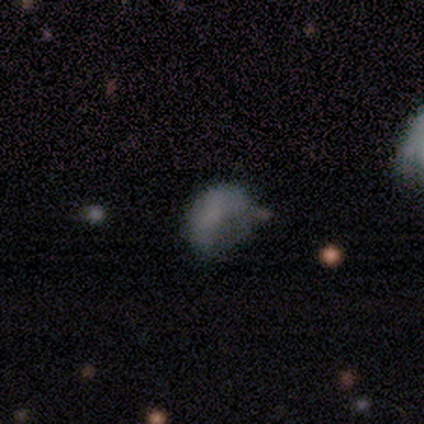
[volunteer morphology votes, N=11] A smooth galaxy with no disk features (55%) that is in between round and cigar-shaped (100%).

Vote fractions:
- Smooth or featured? smooth: 55% / featured or disk: 27% / star or artifact: 18%
- How rounded? in between: 100% / round: 0% / cigar-shaped: 0%
- Merging? minor disturbance: 44% / none: 33% / major disturbance: 22% / merger: 0%